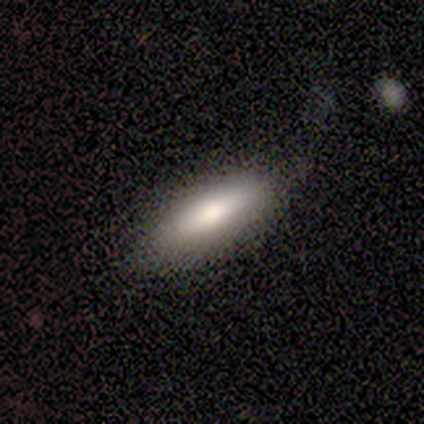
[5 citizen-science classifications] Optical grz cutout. It shows a smooth galaxy with no disk features (100%) that is in between round and cigar-shaped (100%). Merging: none (100%).